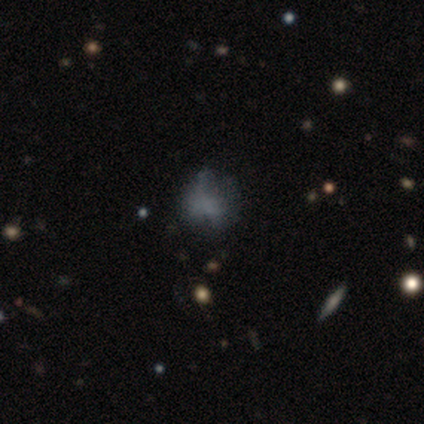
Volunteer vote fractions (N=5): Q: Smooth or featured?
A: featured or disk (60%); runner-up: smooth (40%)
Q: Edge-on disk?
A: no (100%)
Q: Bar?
A: no (100%)
Q: Spiral arms?
A: no (67%); runner-up: yes (33%)
Q: Bulge size?
A: none (100%)
Q: Merging?
A: minor disturbance (40%); runner-up: none (20%)